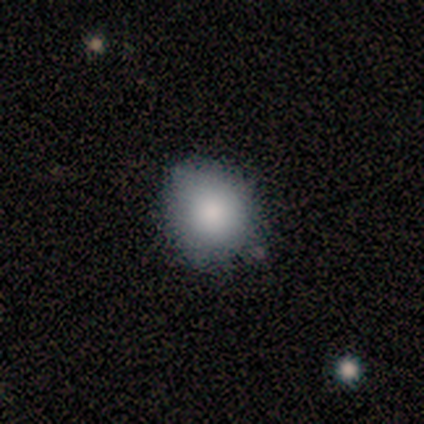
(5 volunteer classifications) Smooth or featured? 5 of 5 (100%) said smooth. How rounded? 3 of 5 (60%) said round. Merging? 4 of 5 (80%) said none.